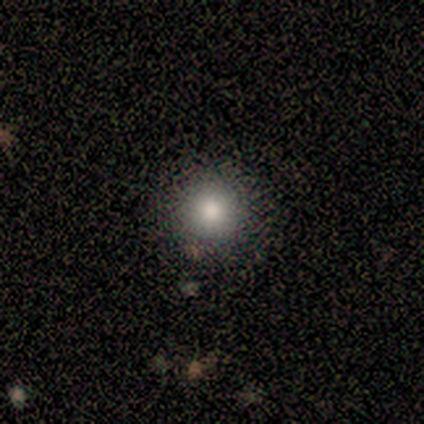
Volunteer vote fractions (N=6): Q: Smooth or featured?
A: smooth (100%)
Q: How rounded?
A: round (100%)
Q: Merging?
A: none (83%); runner-up: minor disturbance (17%)